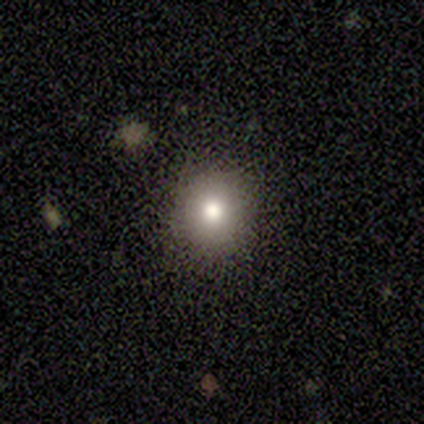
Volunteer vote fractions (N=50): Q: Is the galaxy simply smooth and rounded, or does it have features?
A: smooth — 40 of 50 (80%).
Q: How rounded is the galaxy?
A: round — 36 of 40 (90%).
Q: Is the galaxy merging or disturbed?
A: none — 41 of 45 (91%).